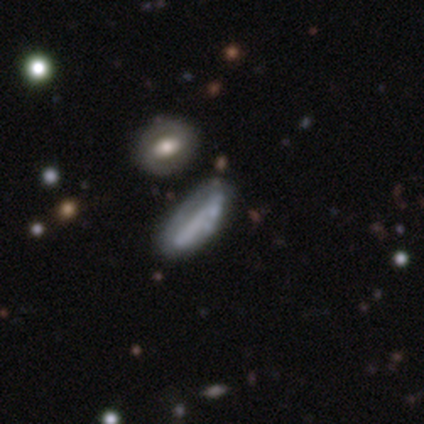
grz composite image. It shows a smooth galaxy with no disk features (49%) that is cigar-shaped (54%). Merging: merger (26%).